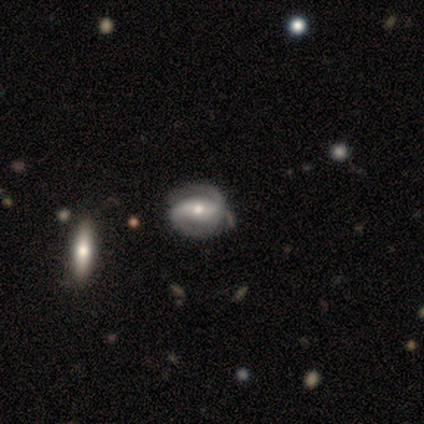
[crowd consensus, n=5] Smooth or featured?
  - featured or disk: 100% *
  - smooth: 0%
  - star or artifact: 0%
Edge-on disk?
  - no: 80% *
  - yes: 20%
Bar?
  - strong: 75% *
  - weak: 25%
  - no: 0%
Spiral arms?
  - yes: 75% *
  - no: 25%
Spiral winding?
  - tight: 67% *
  - medium: 33%
  - loose: 0%
Spiral arm count?
  - 2: 100% *
  - 1: 0%
  - 3: 0%
  - 4: 0%
  - more than 4: 0%
  - can't tell: 0%
Bulge size?
  - moderate: 50% * (tied)
  - small: 50% * (tied)
  - dominant: 0%
  - large: 0%
  - none: 0%
Merging?
  - none: 100% *
  - minor disturbance: 0%
  - major disturbance: 0%
  - merger: 0%